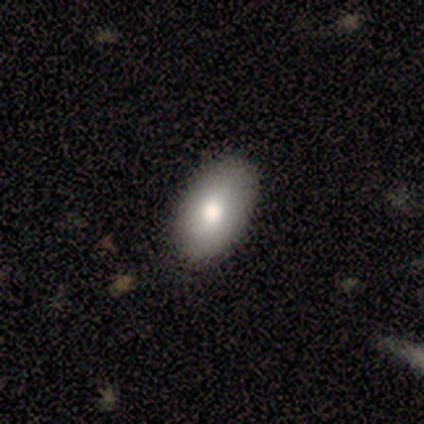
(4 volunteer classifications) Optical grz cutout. It shows a smooth galaxy with no disk features (100%) that is in between round and cigar-shaped (75%). Merging: none (100%).